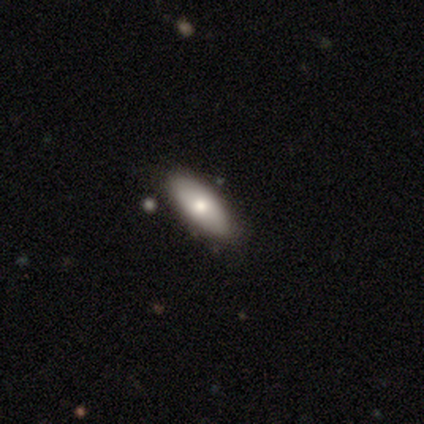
Morphology: type=smooth (100%); roundness=in between (80%); merging=none (60%).